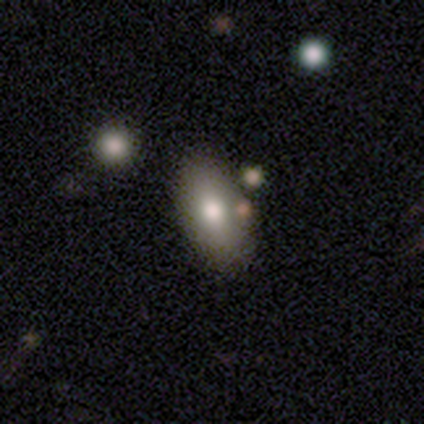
Smooth or featured?
  - smooth: 100% *
  - featured or disk: 0%
  - star or artifact: 0%
How rounded?
  - in between: 100% *
  - round: 0%
  - cigar-shaped: 0%
Merging?
  - none: 100% *
  - minor disturbance: 0%
  - major disturbance: 0%
  - merger: 0%